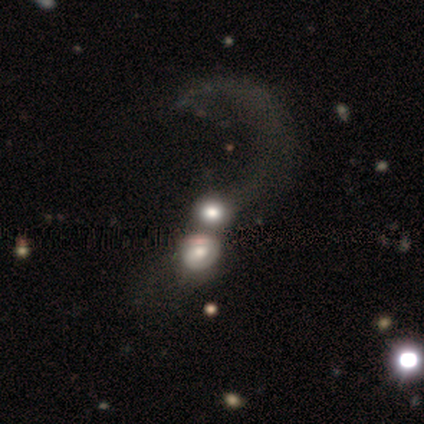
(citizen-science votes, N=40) Morphology: type=smooth (62%); roundness=round (76%); merging=merger (42%).